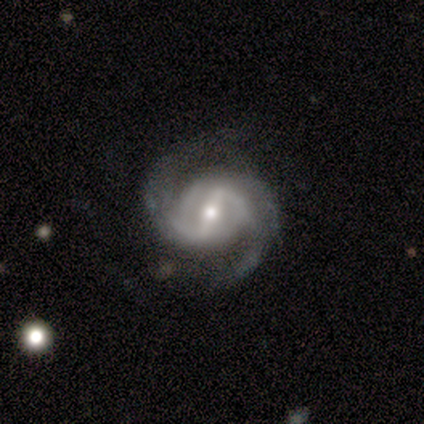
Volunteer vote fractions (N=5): Smooth or featured?
  - featured or disk: 100% *
  - smooth: 0%
  - star or artifact: 0%
Edge-on disk?
  - no: 100% *
  - yes: 0%
Bar?
  - strong: 80% *
  - weak: 20%
  - no: 0%
Spiral arms?
  - yes: 100% *
  - no: 0%
Spiral winding?
  - medium: 60% *
  - tight: 40%
  - loose: 0%
Spiral arm count?
  - 2: 100% *
  - 1: 0%
  - 3: 0%
  - 4: 0%
  - more than 4: 0%
  - can't tell: 0%
Bulge size?
  - moderate: 60% *
  - large: 20%
  - small: 20%
  - dominant: 0%
  - none: 0%
Merging?
  - none: 60% *
  - minor disturbance: 40%
  - major disturbance: 0%
  - merger: 0%